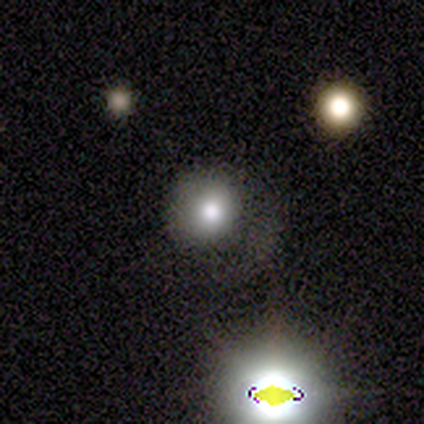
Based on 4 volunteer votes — Morphology: type=smooth (50%); roundness=round (100%); merging=none (67%).